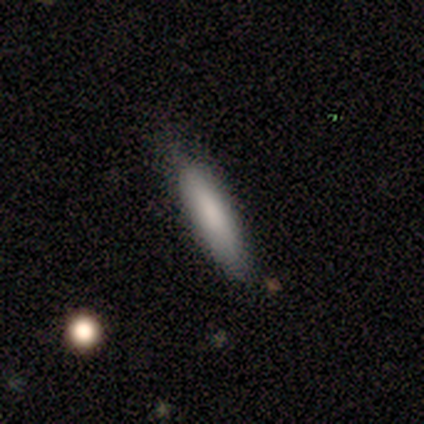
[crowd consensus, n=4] Smooth or featured?
  - smooth: 100% *
  - featured or disk: 0%
  - star or artifact: 0%
How rounded?
  - in between: 50% * (tied)
  - cigar-shaped: 50% * (tied)
  - round: 0%
Merging?
  - none: 75% *
  - minor disturbance: 25%
  - major disturbance: 0%
  - merger: 0%